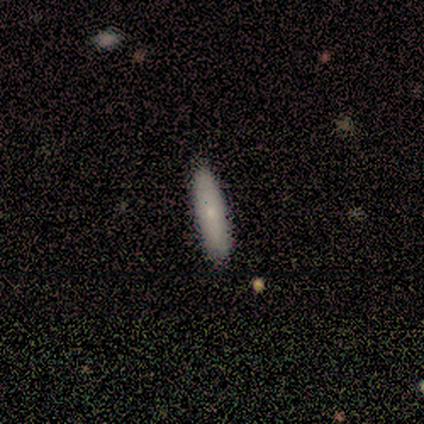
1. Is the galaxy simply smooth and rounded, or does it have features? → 100% smooth, 0% featured or disk, 0% star or artifact.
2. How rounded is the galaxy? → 75% cigar-shaped, 25% in between, 0% round.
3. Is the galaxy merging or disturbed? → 100% none, 0% minor disturbance, 0% major disturbance, 0% merger.